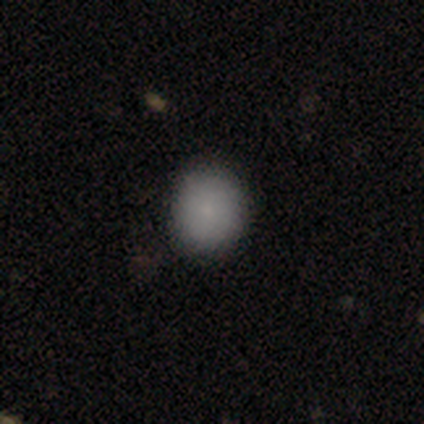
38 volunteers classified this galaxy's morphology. smooth_or_featured: smooth (p=0.79) [alt: star or artifact p=0.16]
how_rounded: round (p=0.80) [alt: in between p=0.20]
merging: none (p=0.91) [alt: minor disturbance p=0.03]